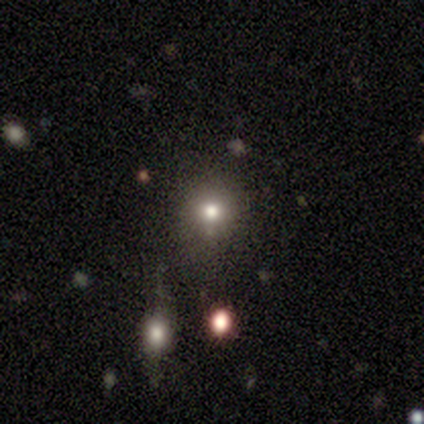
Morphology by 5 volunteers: Q: Smooth or featured?
A: smooth (80%); runner-up: star or artifact (20%)
Q: How rounded?
A: round (100%)
Q: Merging?
A: none (100%)